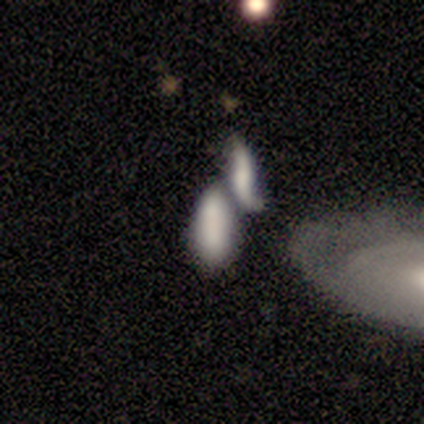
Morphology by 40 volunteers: smooth_or_featured: smooth (p=0.62) [alt: featured or disk p=0.28]
how_rounded: in between (p=0.72) [alt: cigar-shaped p=0.28]
merging: merger (p=0.86) [alt: none p=0.06]